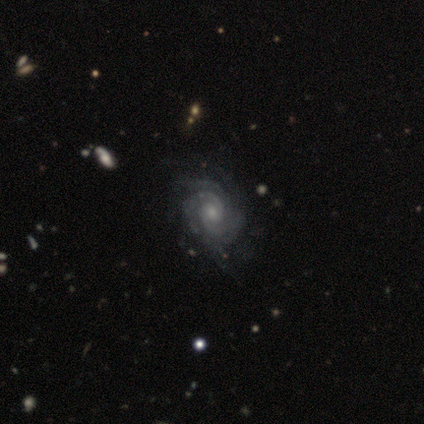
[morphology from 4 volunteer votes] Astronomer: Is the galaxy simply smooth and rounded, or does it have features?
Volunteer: featured or disk — 100%.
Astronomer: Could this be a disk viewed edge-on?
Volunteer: no — 75%.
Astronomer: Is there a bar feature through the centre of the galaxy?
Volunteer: no — 100%.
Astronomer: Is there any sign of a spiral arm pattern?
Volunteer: yes — 100%.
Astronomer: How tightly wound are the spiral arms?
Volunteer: medium — 67%.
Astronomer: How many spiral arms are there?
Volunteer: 4 — 67%.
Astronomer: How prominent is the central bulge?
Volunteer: moderate — 67%.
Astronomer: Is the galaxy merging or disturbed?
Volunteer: none — 100%.